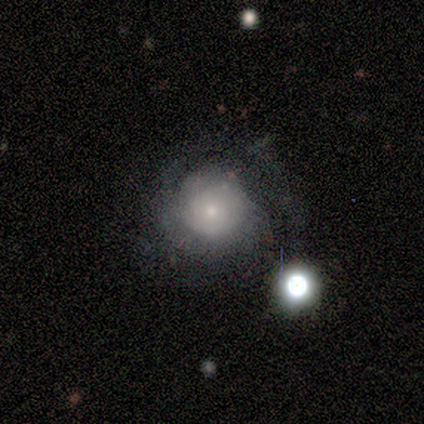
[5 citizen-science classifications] Smooth or featured?
  - featured or disk: 60% *
  - smooth: 40%
  - star or artifact: 0%
Edge-on disk?
  - no: 100% *
  - yes: 0%
Bar?
  - no: 100% *
  - strong: 0%
  - weak: 0%
Spiral arms?
  - no: 100% *
  - yes: 0%
Bulge size?
  - small: 67% *
  - moderate: 33%
  - dominant: 0%
  - large: 0%
  - none: 0%
Merging?
  - none: 80% *
  - minor disturbance: 20%
  - major disturbance: 0%
  - merger: 0%